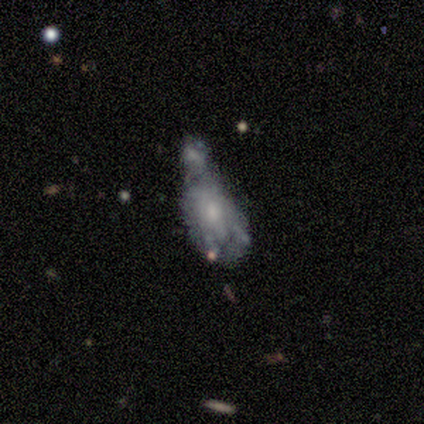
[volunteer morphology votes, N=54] This appears to be a featured or disk galaxy (69%) with no bar (86%), no spiral arms (91%) and a small central bulge (49%). Merging: merger (47%).